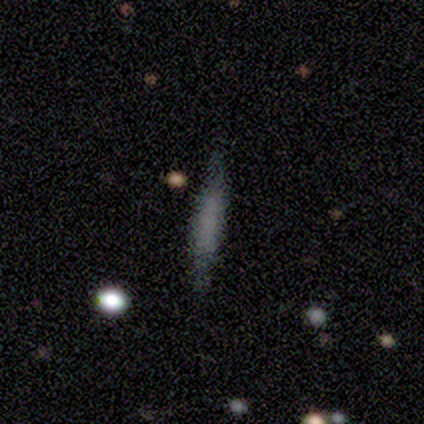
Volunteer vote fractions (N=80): Volunteers were most divided on "smooth or featured": smooth: 57%, featured or disk: 32%, star or artifact: 10%. More confident: how rounded — cigar-shaped (93%); merging — none (86%).